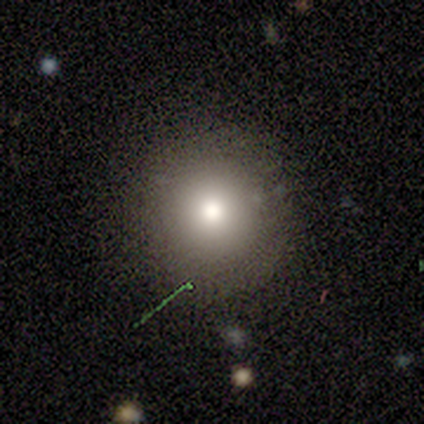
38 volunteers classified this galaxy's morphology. Smooth or featured? smooth (82%)
How rounded? round (94%)
Merging? none (79%)